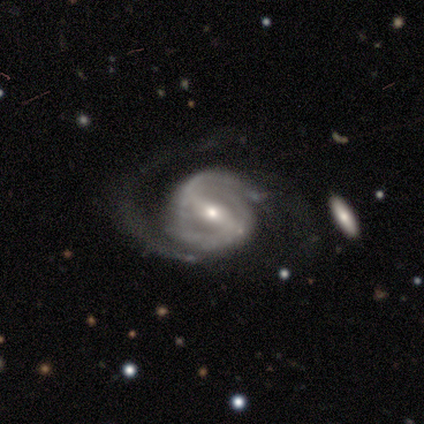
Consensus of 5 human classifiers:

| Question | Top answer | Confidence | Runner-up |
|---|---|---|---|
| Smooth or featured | featured or disk | 100% | — |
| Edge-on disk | no | 100% | — |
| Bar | weak | 60% | strong (40%) |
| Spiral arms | yes | 100% | — |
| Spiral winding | medium | 80% | tight (20%) |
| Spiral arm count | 2 | 80% | 1 (20%) |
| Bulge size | small | 80% | moderate (20%) |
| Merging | none | 60% | minor disturbance (20%) |